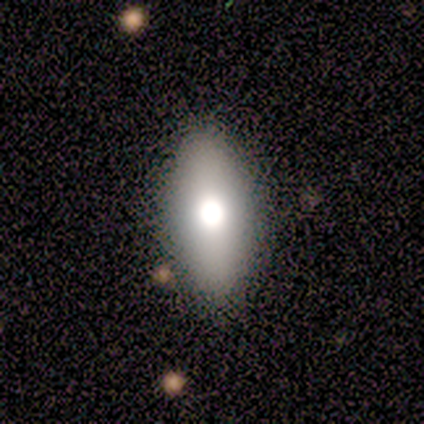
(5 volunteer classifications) This appears to be a smooth galaxy with no disk features (60%) that is in between round and cigar-shaped (67%). Merging: none (75%).